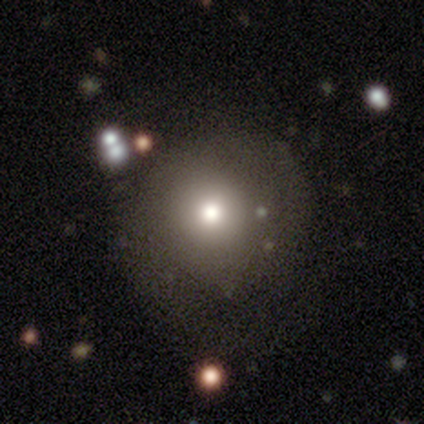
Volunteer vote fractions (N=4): Morphology: type=smooth (100%); roundness=round (75%); merging=minor disturbance (75%).